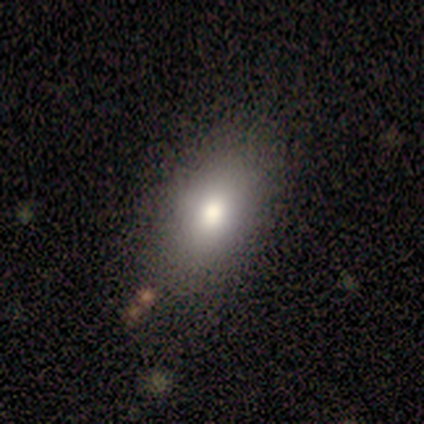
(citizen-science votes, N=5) This appears to be a smooth galaxy with no disk features (100%) that is in between round and cigar-shaped (80%). Merging: none (80%).